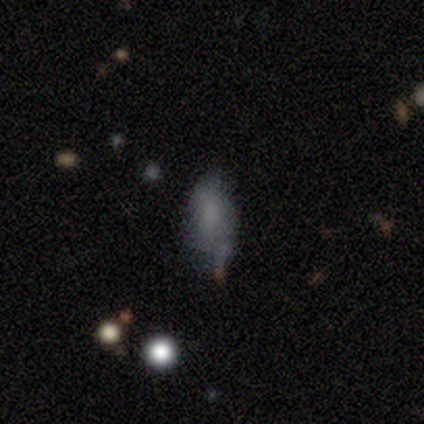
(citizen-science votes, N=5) A smooth galaxy with no disk features (80%) that is in between round and cigar-shaped (100%). Merging: minor disturbance (50%).